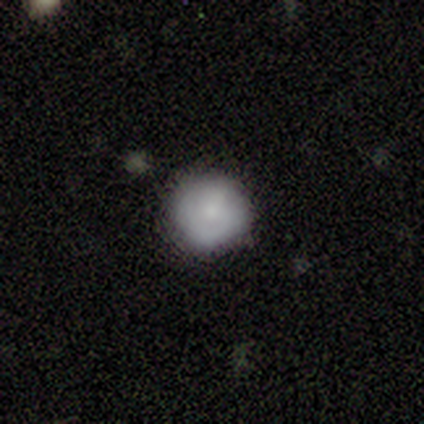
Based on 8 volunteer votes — smooth_or_featured: smooth (p=0.75) [alt: featured or disk p=0.12]
how_rounded: round (p=0.83) [alt: in between p=0.17]
merging: none (p=1.00)